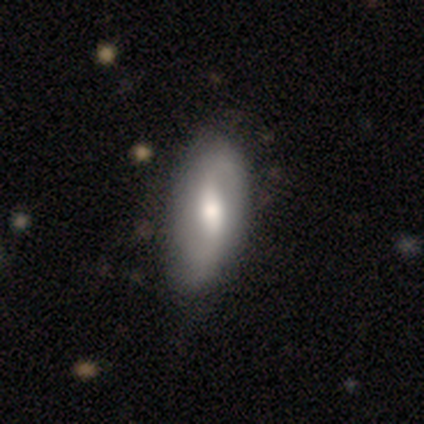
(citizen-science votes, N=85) smooth-or-featured: featured or disk: 53% | smooth: 42% | star or artifact: 5%
  disk-edge-on: no: 93% | yes: 7%
    bar: weak: 64% | no: 24% | strong: 12%
    has-spiral-arms: yes: 76% | no: 24%
      spiral-winding: loose: 72% | medium: 16% | tight: 12%
      spiral-arm-count: 2: 88% | can't tell: 9% | 1: 3% | 3: 0% | 4: 0% | more than 4: 0%
    bulge-size: moderate: 62% | small: 26% | large: 5% | none: 5% | dominant: 2%
  merging: none: 58% | minor disturbance: 32% | major disturbance: 7% | merger: 2%